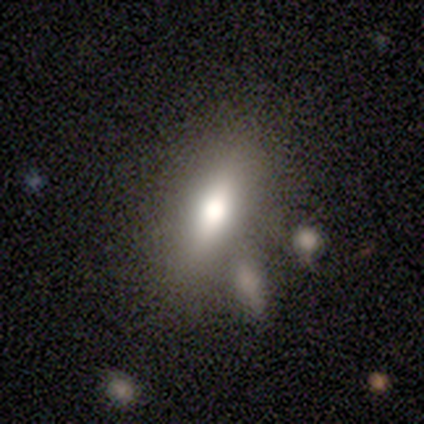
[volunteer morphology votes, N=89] This appears to be a smooth galaxy with no disk features (67%) that is in between round and cigar-shaped (72%). Merging: none (71%).